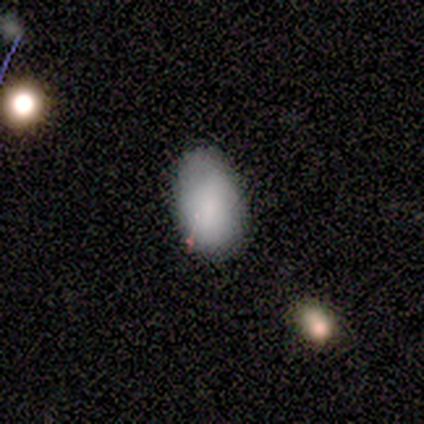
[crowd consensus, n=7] Volunteers were most divided on "smooth or featured": smooth: 57%, featured or disk: 43%, star or artifact: 0%. More confident: merging — none (100%); how rounded — in between (75%).